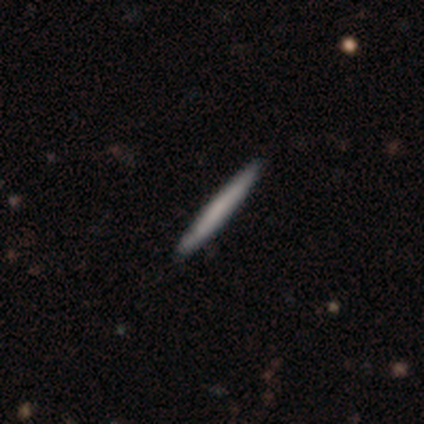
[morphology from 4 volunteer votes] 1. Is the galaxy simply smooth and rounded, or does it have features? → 75% smooth, 25% featured or disk, 0% star or artifact.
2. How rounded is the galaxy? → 100% cigar-shaped, 0% round, 0% in between.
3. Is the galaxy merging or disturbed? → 100% none, 0% minor disturbance, 0% major disturbance, 0% merger.